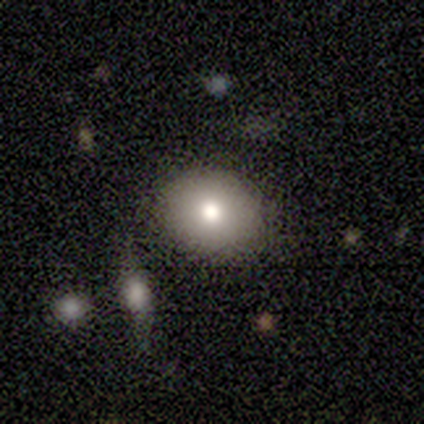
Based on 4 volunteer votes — Smooth or featured: smooth — 75% (star or artifact — 25%)
How rounded: in between — 67% (round — 33%)
Merging: none — 67% (major disturbance — 33%)